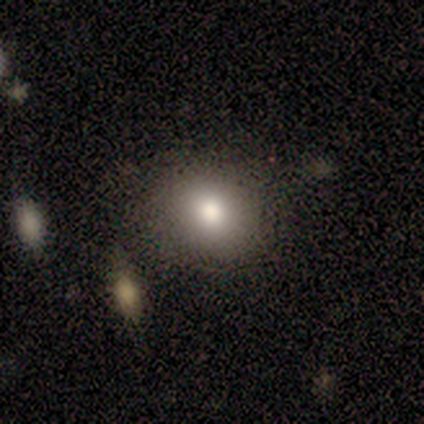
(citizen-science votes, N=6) Morphology: type=smooth (100%); roundness=round (83%); merging=none (100%).